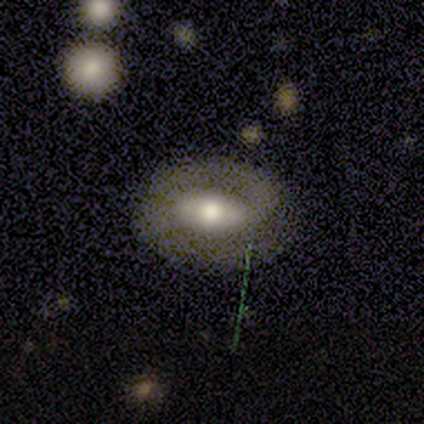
This is clearly a featured or disk galaxy (100%). It is clearly not viewed edge-on (100%). Bar: possibly weak (50%, tied with no). Spiral arm pattern: likely no (75%). Central bulge: possibly moderate (50%). Merging: clearly none (100%).